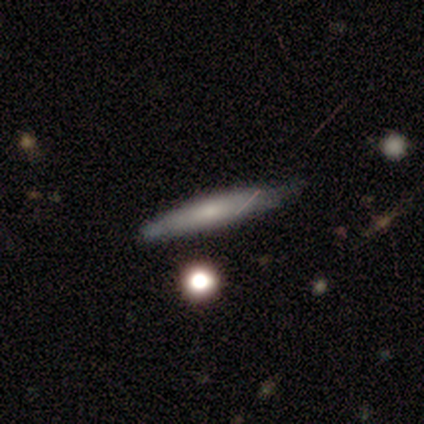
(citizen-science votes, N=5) Volunteers were most divided on "smooth or featured": smooth: 60%, featured or disk: 40%, star or artifact: 0%. More confident: how rounded — cigar-shaped (100%); merging — none (100%).